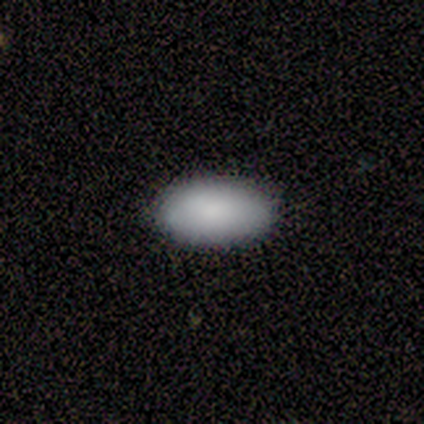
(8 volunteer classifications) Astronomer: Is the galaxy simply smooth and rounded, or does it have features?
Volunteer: smooth — 75%.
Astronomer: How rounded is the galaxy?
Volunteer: in between — 100%.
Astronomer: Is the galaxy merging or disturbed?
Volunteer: none — 86%.